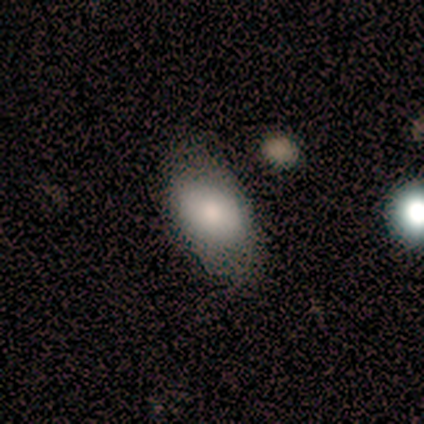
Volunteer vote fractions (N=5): A smooth galaxy with no disk features (100%) that is in between round and cigar-shaped (80%). Merging: none (60%).